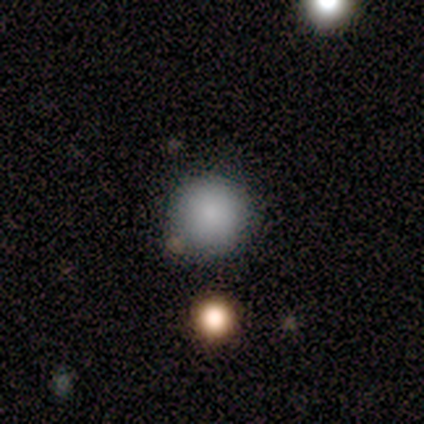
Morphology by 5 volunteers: Q: Smooth or featured?
A: smooth (100%)
Q: How rounded?
A: round (80%); runner-up: in between (20%)
Q: Merging?
A: none (80%); runner-up: minor disturbance (20%)